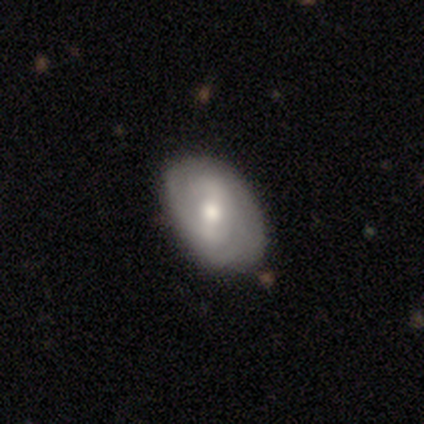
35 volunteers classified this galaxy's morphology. smooth_or_featured: featured or disk (p=0.71) [alt: smooth p=0.26]
disk_edge_on: no (p=1.00)
bar: weak (p=0.64) [alt: no p=0.24]
has_spiral_arms: yes (p=0.68) [alt: no p=0.32]
spiral_winding: tight (p=0.76) [alt: loose p=0.18]
spiral_arm_count: can't tell (p=0.47) [alt: 2 p=0.35]
bulge_size: moderate (p=0.64) [alt: large p=0.16]
merging: none (p=0.88) [alt: minor disturbance p=0.09]